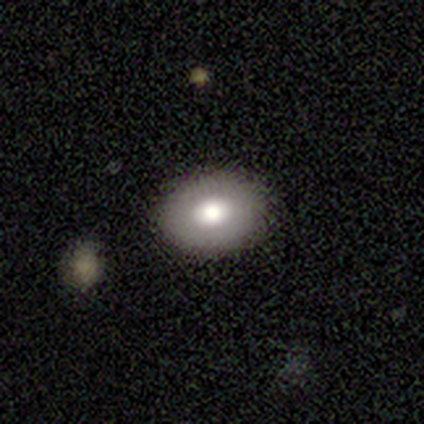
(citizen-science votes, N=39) smooth_or_featured: smooth (p=0.67) [alt: featured or disk p=0.21]
how_rounded: in between (p=0.85) [alt: round p=0.15]
merging: none (p=0.85) [alt: minor disturbance p=0.12]